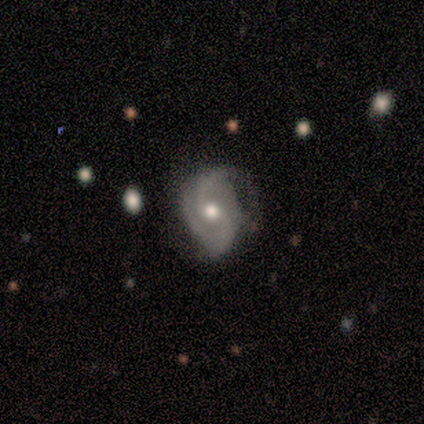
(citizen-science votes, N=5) Smooth or featured? featured or disk (80%)
Edge-on disk? no (100%)
Bar? no (100%)
Spiral arms? yes (100%)
Spiral winding? medium (50%)
Spiral arm count? 2 (50%)
Bulge size? moderate (100%)
Merging? none (100%)